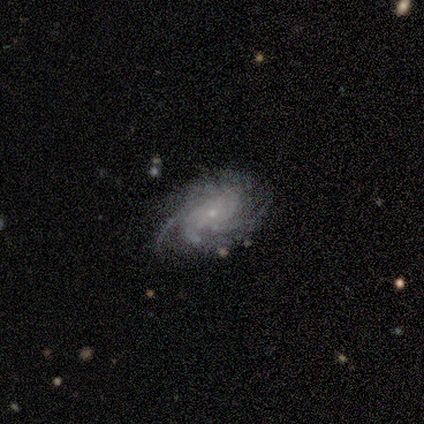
Smooth or featured: featured or disk — 85% (smooth — 8%)
Edge-on disk: no — 100%
Bar: no — 85% (weak — 15%)
Spiral arms: yes — 97% (no — 3%)
Spiral winding: tight — 62% (medium — 28%)
Spiral arm count: can't tell — 44% (4 — 22%)
Bulge size: small — 91% (moderate — 6%)
Merging: none — 75% (minor disturbance — 17%)